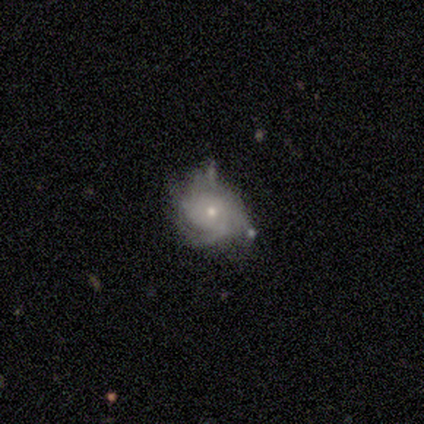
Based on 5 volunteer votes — Smooth or featured?
  - featured or disk: 100% *
  - smooth: 0%
  - star or artifact: 0%
Edge-on disk?
  - no: 100% *
  - yes: 0%
Bar?
  - no: 80% *
  - weak: 20%
  - strong: 0%
Spiral arms?
  - yes: 100% *
  - no: 0%
Spiral winding?
  - tight: 40% * (tied)
  - loose: 40% * (tied)
  - medium: 20%
Spiral arm count?
  - can't tell: 40% *
  - 1: 20%
  - 3: 20%
  - 4: 20%
  - 2: 0%
  - more than 4: 0%
Bulge size?
  - moderate: 60% *
  - small: 40%
  - dominant: 0%
  - large: 0%
  - none: 0%
Merging?
  - minor disturbance: 60% *
  - none: 40%
  - major disturbance: 0%
  - merger: 0%